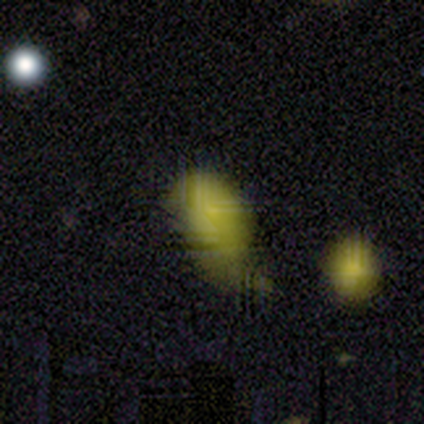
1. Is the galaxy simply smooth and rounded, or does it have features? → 60% smooth, 40% featured or disk, 0% star or artifact.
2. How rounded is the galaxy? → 100% in between, 0% round, 0% cigar-shaped.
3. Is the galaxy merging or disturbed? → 60% major disturbance, 20% minor disturbance, 20% merger, 0% none.